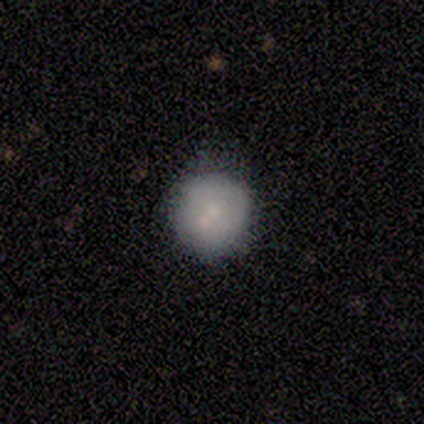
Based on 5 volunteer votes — smooth-or-featured: featured or disk: 60% | smooth: 40% | star or artifact: 0%
  disk-edge-on: no: 100% | yes: 0%
    bar: no: 100% | strong: 0% | weak: 0%
    has-spiral-arms: no: 100% | yes: 0%
    bulge-size: small: 100% | dominant: 0% | large: 0% | moderate: 0% | none: 0%
  merging: none: 60% | minor disturbance: 40% | major disturbance: 0% | merger: 0%